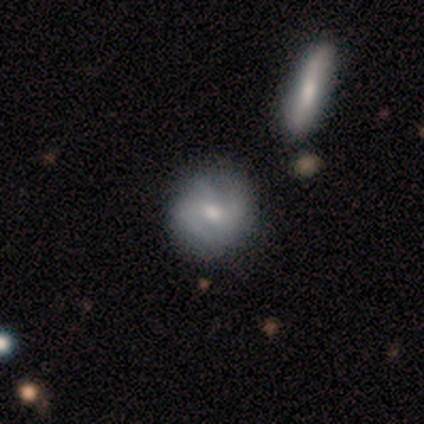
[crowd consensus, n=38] This is possibly a featured or disk galaxy (53%). It is clearly not viewed edge-on (95%). Bar: likely weak (63%). Spiral arm pattern: likely yes (79%). Spiral arm count: marginally can't tell (40%). Spiral winding: possibly tight (53%). Central bulge: possibly small (53%). Merging: clearly none (80%).